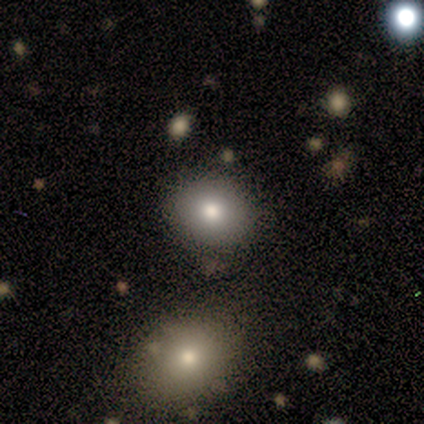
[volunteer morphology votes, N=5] Q: Smooth or featured?
A: smooth (60%); runner-up: featured or disk (20%)
Q: How rounded?
A: in between (100%)
Q: Merging?
A: none (50%); tied with: minor disturbance (50%)